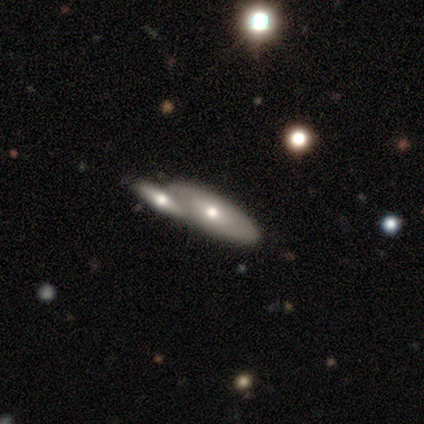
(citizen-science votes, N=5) A featured or disk galaxy (60%) viewed edge-on (67%) with a rounded central bulge (100%).

Vote fractions:
- Smooth or featured? featured or disk: 60% / smooth: 40% / star or artifact: 0%
- Edge-on disk? yes: 67% / no: 33%
- Edge-on bulge? rounded: 100% / boxy: 0% / none: 0%
- Merging? none: 80% / merger: 20% / minor disturbance: 0% / major disturbance: 0%